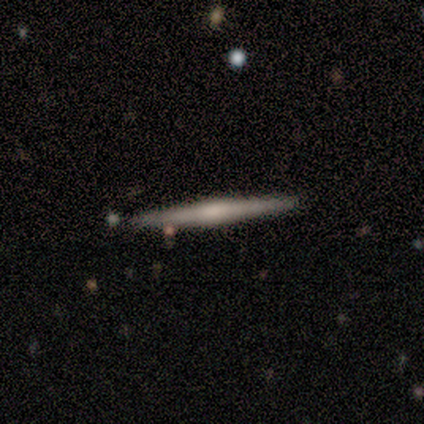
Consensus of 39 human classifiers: A featured or disk galaxy (74%) viewed edge-on (100%) with a rounded central bulge (52%).

Vote fractions:
- Smooth or featured? featured or disk: 74% / smooth: 23% / star or artifact: 3%
- Edge-on disk? yes: 100% / no: 0%
- Edge-on bulge? rounded: 52% / boxy: 24% / none: 24%
- Merging? none: 97% / minor disturbance: 3% / major disturbance: 0% / merger: 0%